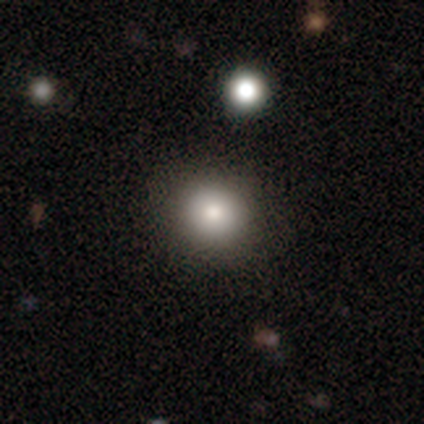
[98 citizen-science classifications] Smooth or featured? 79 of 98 (81%) said smooth. How rounded? 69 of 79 (87%) said round. Merging? 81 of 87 (93%) said none.